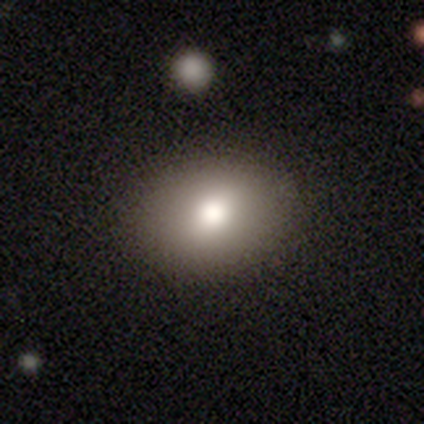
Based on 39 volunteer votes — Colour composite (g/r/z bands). It shows a smooth galaxy with no disk features (74%) that is in between round and cigar-shaped (66%). Merging: none (70%).